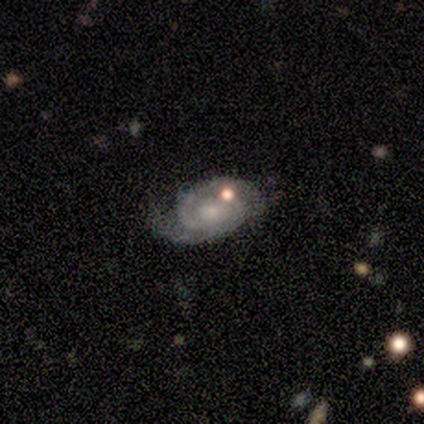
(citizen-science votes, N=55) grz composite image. It shows a featured or disk galaxy (84%) with no bar (64%), 2 (74%) tight (63%) spiral arms (96%) and a small central bulge (51%). Merging: none (51%).